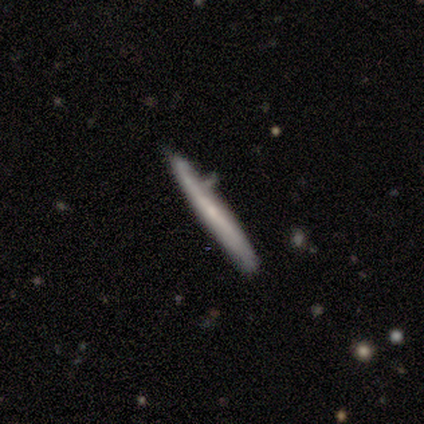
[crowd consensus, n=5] Smooth or featured? 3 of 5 (60%) said featured or disk. Edge-on disk? 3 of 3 (100%) said yes. Edge-on bulge? 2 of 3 (67%) said none. Merging? 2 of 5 (40%, tied with merger) said none.